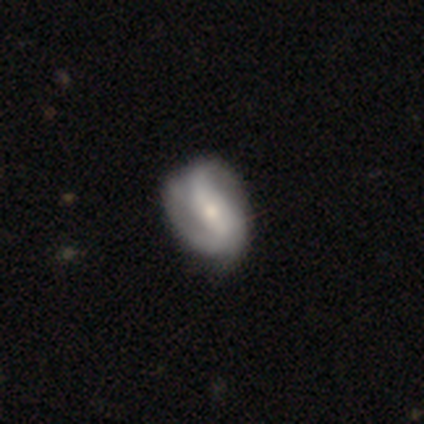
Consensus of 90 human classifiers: Morphology: type=featured or disk (67%); edge-on=no (92%); bar=strong (36%); spiral arms=yes (87%); winding=medium (38%); arm count=2 (73%); bulge=small (55%); merging=none (65%).